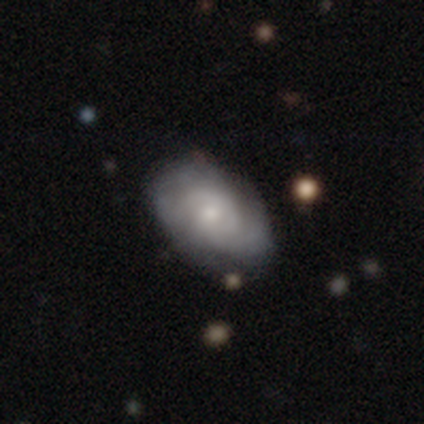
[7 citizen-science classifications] This is likely a featured or disk galaxy (71%). It is clearly not viewed edge-on (100%). Bar: clearly no (80%). Spiral arm pattern: clearly yes (80%). Spiral arm count: possibly 2 (50%, tied with can't tell). Spiral winding: possibly tight (50%, tied with medium). Central bulge: likely small (60%). Merging: clearly none (86%).